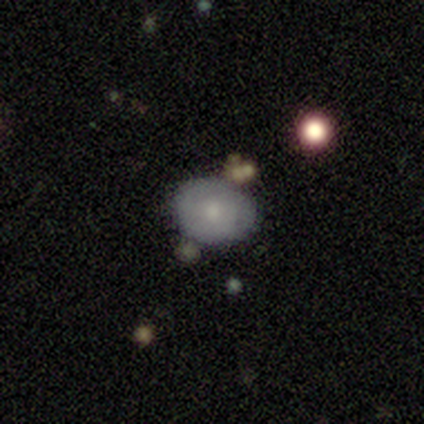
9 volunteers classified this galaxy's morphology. Overall: smooth (78%). How rounded: round (57%; in between 43%). Merging: none (56%; minor disturbance 22%).